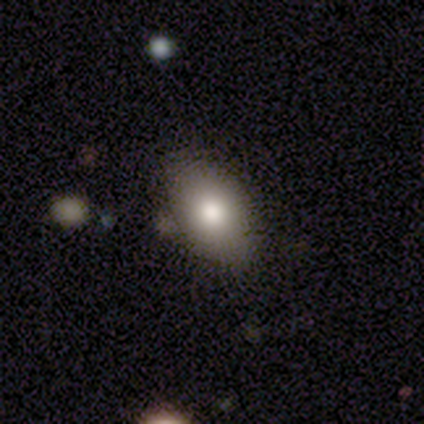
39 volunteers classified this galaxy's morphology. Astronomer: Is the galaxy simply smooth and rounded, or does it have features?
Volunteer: smooth — 69%.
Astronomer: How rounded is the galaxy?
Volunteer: in between — 93%.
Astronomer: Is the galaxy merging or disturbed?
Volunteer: none — 92%.